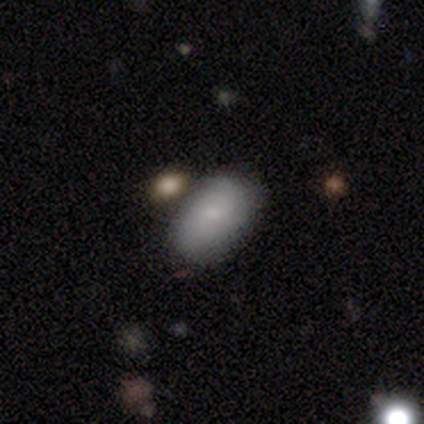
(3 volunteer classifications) Volunteers were most divided on "merging": none: 67%, major disturbance: 33%, minor disturbance: 0%, merger: 0%. More confident: smooth or featured — smooth (100%); how rounded — in between (100%).